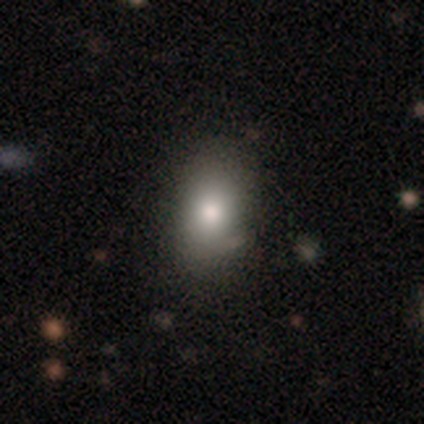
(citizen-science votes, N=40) Smooth or featured?
  - smooth: 72% *
  - featured or disk: 18%
  - star or artifact: 10%
How rounded?
  - in between: 90% *
  - round: 10%
  - cigar-shaped: 0%
Merging?
  - none: 86% *
  - minor disturbance: 8%
  - merger: 6%
  - major disturbance: 0%